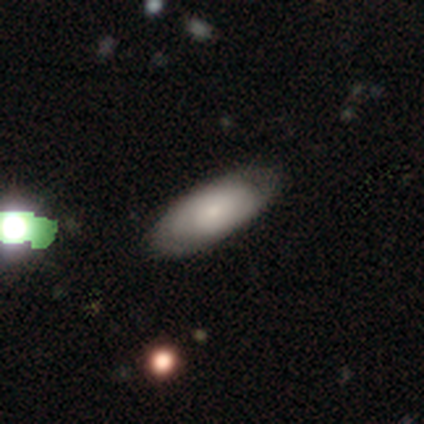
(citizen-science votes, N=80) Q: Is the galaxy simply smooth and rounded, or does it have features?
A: smooth — 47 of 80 (59%).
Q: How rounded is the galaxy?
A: in between — 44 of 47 (94%).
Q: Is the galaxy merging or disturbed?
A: none — 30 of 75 (40%).